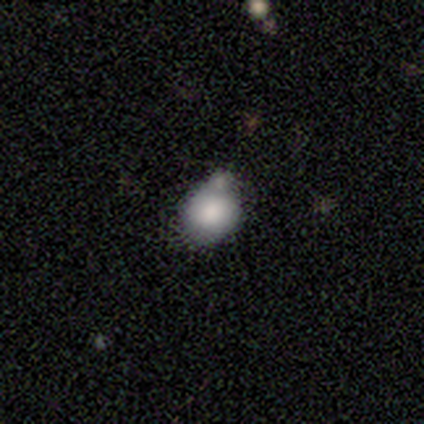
This appears to be a smooth galaxy with no disk features (80%) that is round (50%, tied with in between). Merging: merger (80%).